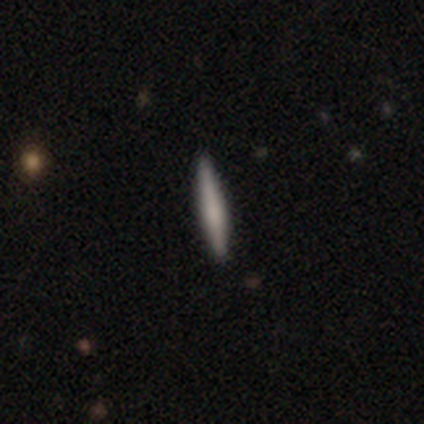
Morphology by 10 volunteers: A smooth galaxy with no disk features (60%) that is cigar-shaped (100%).

Vote fractions:
- Smooth or featured? smooth: 60% / featured or disk: 30% / star or artifact: 10%
- How rounded? cigar-shaped: 100% / round: 0% / in between: 0%
- Merging? none: 89% / minor disturbance: 11% / major disturbance: 0% / merger: 0%